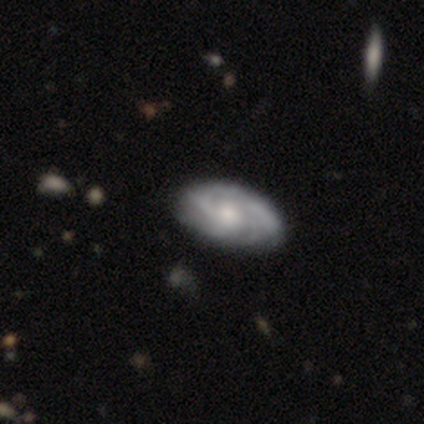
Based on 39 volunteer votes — Smooth or featured: featured or disk — 82% (smooth — 13%)
Edge-on disk: no — 94% (yes — 6%)
Bar: no — 83% (weak — 17%)
Spiral arms: yes — 90% (no — 10%)
Spiral winding: tight — 56% (medium — 41%)
Spiral arm count: can't tell — 33% (2 — 26%)
Bulge size: moderate — 50% (small — 40%)
Merging: none — 76% (minor disturbance — 14%)